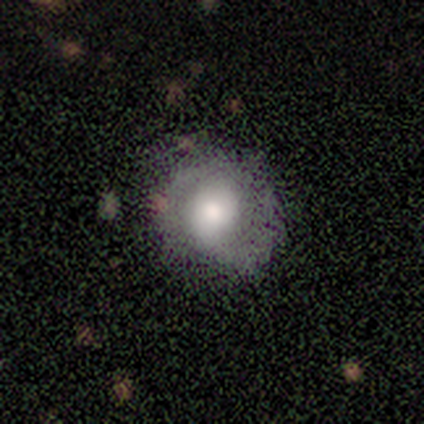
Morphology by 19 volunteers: Smooth or featured?
  - featured or disk: 63% *
  - smooth: 32%
  - star or artifact: 5%
Edge-on disk?
  - no: 92% *
  - yes: 8%
Bar?
  - no: 55% *
  - weak: 45%
  - strong: 0%
Spiral arms?
  - yes: 64% *
  - no: 36%
Spiral winding?
  - medium: 57% *
  - tight: 29%
  - loose: 14%
Spiral arm count?
  - 2: 71% *
  - 1: 14%
  - can't tell: 14%
  - 3: 0%
  - 4: 0%
  - more than 4: 0%
Bulge size?
  - moderate: 55% *
  - large: 36%
  - none: 9%
  - dominant: 0%
  - small: 0%
Merging?
  - none: 83% *
  - minor disturbance: 6%
  - major disturbance: 6%
  - merger: 6%